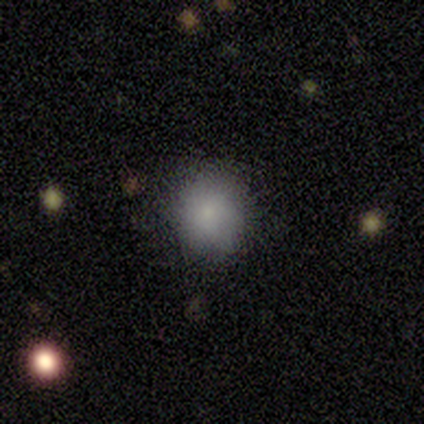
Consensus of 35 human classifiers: Smooth or featured: smooth — 83% (star or artifact — 11%)
How rounded: round — 83% (in between — 17%)
Merging: none — 81% (minor disturbance — 16%)